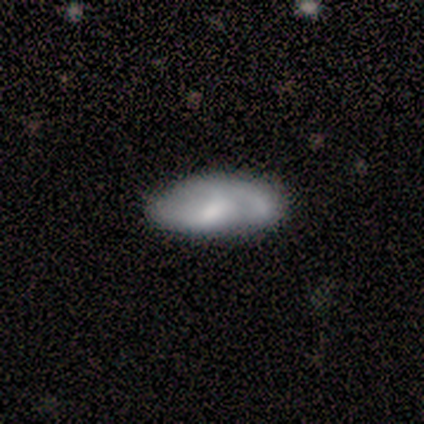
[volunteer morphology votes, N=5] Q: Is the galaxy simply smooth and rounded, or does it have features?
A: featured or disk — 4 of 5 (80%).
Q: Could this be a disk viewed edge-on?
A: no — 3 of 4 (75%).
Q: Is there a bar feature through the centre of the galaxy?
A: no — 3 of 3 (100%).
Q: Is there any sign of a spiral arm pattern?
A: yes — 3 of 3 (100%).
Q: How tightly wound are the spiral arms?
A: loose — 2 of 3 (67%).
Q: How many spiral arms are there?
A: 2 — 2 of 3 (67%).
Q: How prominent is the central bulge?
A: moderate — 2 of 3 (67%).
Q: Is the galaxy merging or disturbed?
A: none — 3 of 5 (60%).